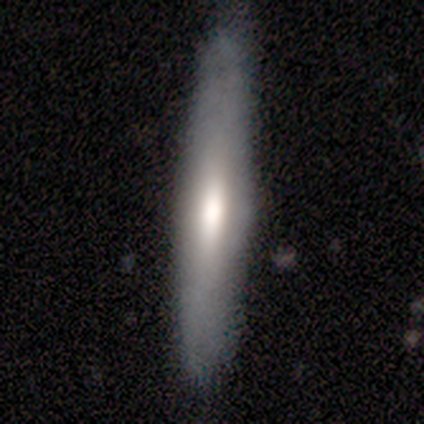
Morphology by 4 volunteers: Smooth or featured?
  - smooth: 50% * (tied)
  - featured or disk: 50% * (tied)
  - star or artifact: 0%
How rounded?
  - cigar-shaped: 100% *
  - round: 0%
  - in between: 0%
Merging?
  - none: 50% * (tied)
  - minor disturbance: 50% * (tied)
  - major disturbance: 0%
  - merger: 0%